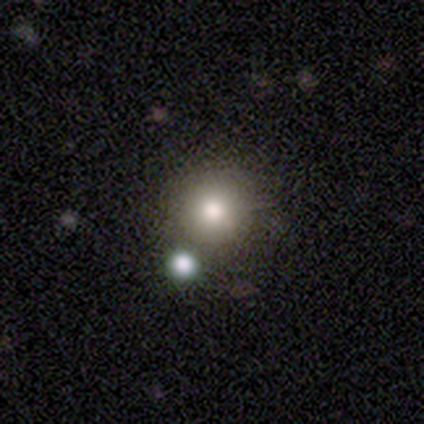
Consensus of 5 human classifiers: smooth_or_featured: star or artifact (p=0.60) [alt: smooth p=0.40]